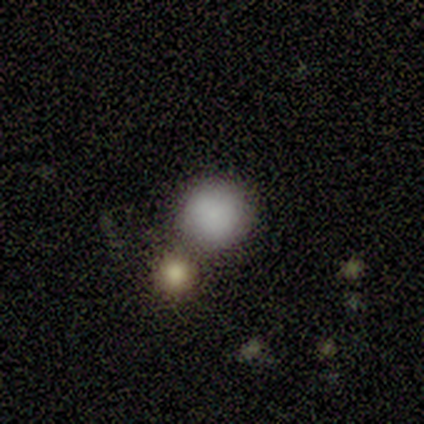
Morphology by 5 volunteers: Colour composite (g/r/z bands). It shows a smooth galaxy with no disk features (100%) that is round (80%). Merging: merger (60%).